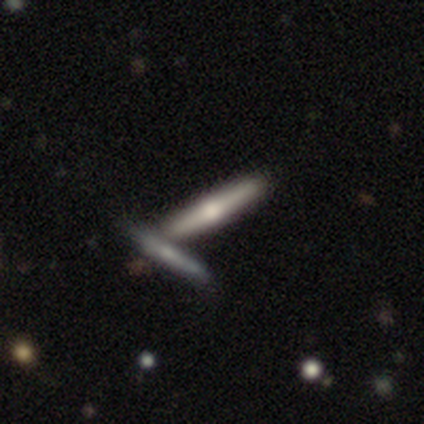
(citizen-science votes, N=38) A smooth galaxy with no disk features (50%, tied with featured or disk) that is cigar-shaped (100%). Merging: none (53%).